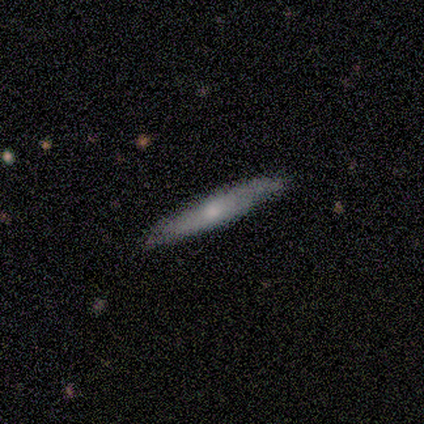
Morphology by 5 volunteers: smooth 60%, featured or disk 40%, star or artifact 0%. Down the decision tree: how rounded — in between (100%); merging — none (60%).